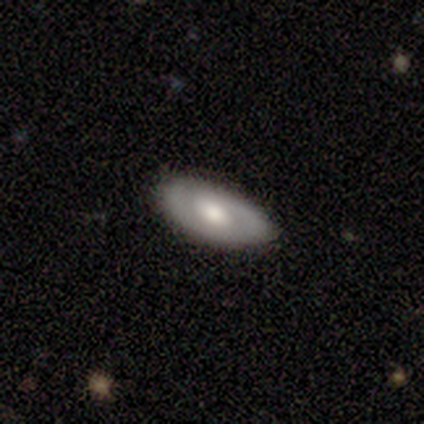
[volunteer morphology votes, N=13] This is likely a featured or disk galaxy (62%). It is clearly not viewed edge-on (88%). Bar: likely no (71%). Spiral arm pattern: clearly yes (86%). Spiral arm count: clearly 2 (83%). Spiral winding: possibly tight (50%, tied with medium). Central bulge: possibly moderate (57%). Merging: clearly none (91%).